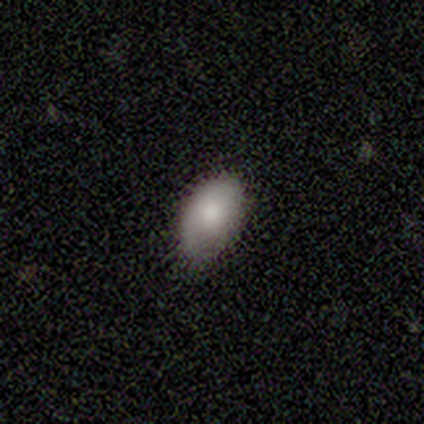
Smooth or featured?
  - smooth: 88% *
  - featured or disk: 12%
  - star or artifact: 0%
How rounded?
  - in between: 86% *
  - round: 14%
  - cigar-shaped: 0%
Merging?
  - minor disturbance: 50% *
  - none: 38%
  - merger: 12%
  - major disturbance: 0%